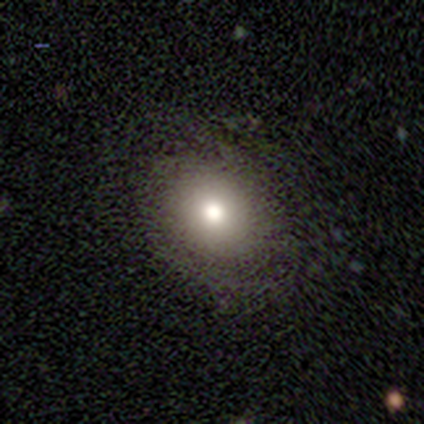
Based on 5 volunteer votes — smooth_or_featured: smooth (p=0.80) [alt: star or artifact p=0.20]
how_rounded: round (p=0.50) [tied with: in between p=0.50]
merging: none (p=0.75) [alt: minor disturbance p=0.25]